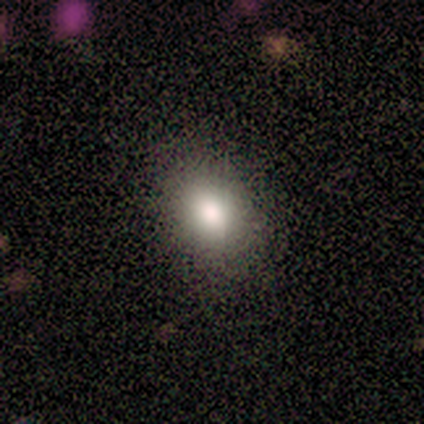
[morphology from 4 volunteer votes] type=smooth (50%, tied with star or artifact); roundness=round (50%, tied with in between); merging=none (50%, tied with minor disturbance).